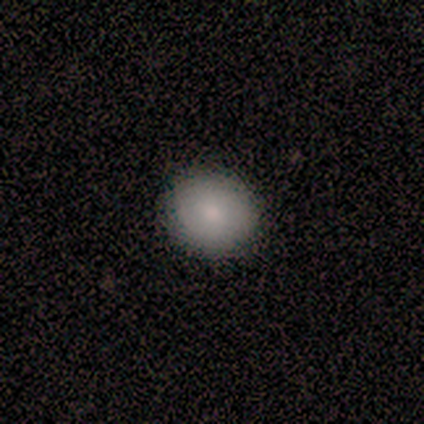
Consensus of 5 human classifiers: Overall: smooth (80%). How rounded: round (75%). Merging: none (100%).